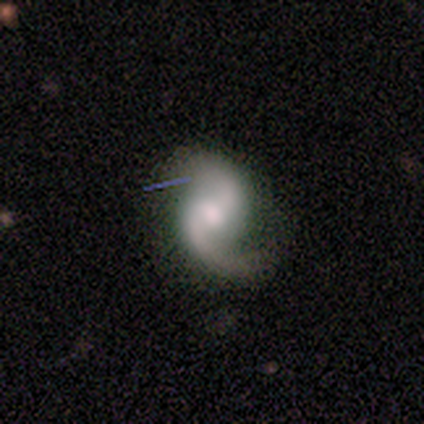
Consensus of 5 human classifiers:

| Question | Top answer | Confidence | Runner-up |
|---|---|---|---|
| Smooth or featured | featured or disk | 100% | — |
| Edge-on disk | no | 100% | — |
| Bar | no | 60% | strong (20%) |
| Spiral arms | yes | 100% | — |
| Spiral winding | loose | 60% | medium (40%) |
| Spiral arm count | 2 | 100% | — |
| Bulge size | moderate | 80% | small (20%) |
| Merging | none | 100% | — |